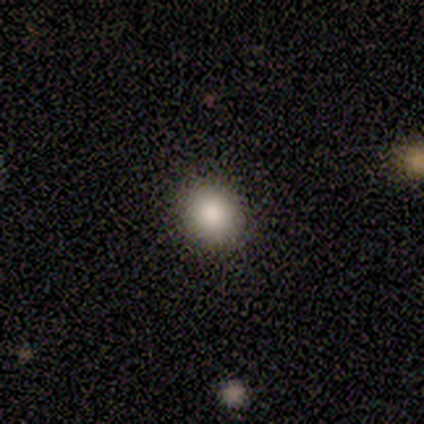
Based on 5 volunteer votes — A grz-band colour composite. It shows a smooth galaxy with no disk features (100%) that is round (60%). Merging: none (100%).